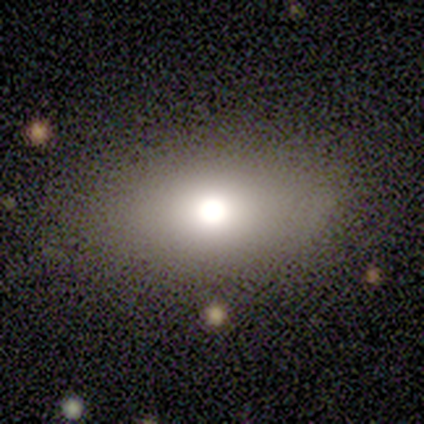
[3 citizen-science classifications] A smooth galaxy with no disk features (67%) that is in between round and cigar-shaped (100%).

Vote fractions:
- Smooth or featured? smooth: 67% / star or artifact: 33% / featured or disk: 0%
- How rounded? in between: 100% / round: 0% / cigar-shaped: 0%
- Merging? none: 100% / minor disturbance: 0% / major disturbance: 0% / merger: 0%